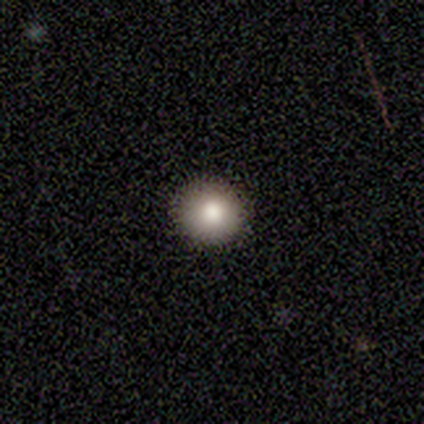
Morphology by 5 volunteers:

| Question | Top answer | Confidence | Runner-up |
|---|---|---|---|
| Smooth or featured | smooth | 80% | featured or disk (20%) |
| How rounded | round | 100% | — |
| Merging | none | 100% | — |